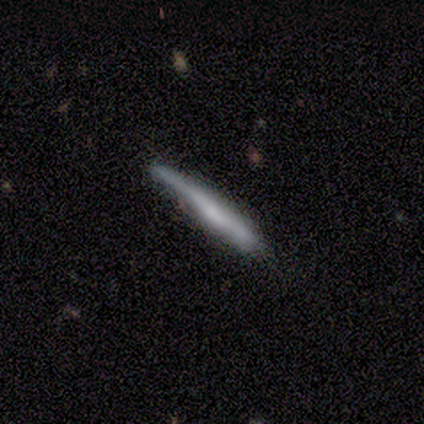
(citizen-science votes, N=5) Smooth or featured? 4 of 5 (80%) said smooth. How rounded? 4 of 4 (100%) said cigar-shaped. Merging? 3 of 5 (60%) said minor disturbance.